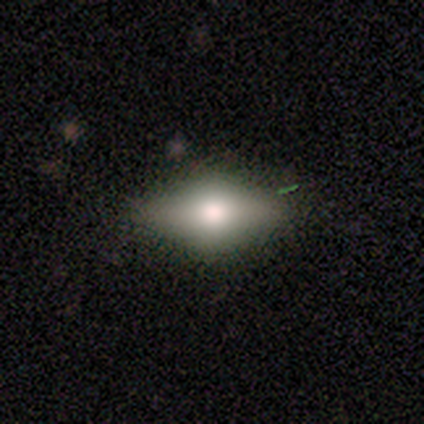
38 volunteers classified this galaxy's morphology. type=smooth (58%); roundness=in between (86%); merging=none (85%).